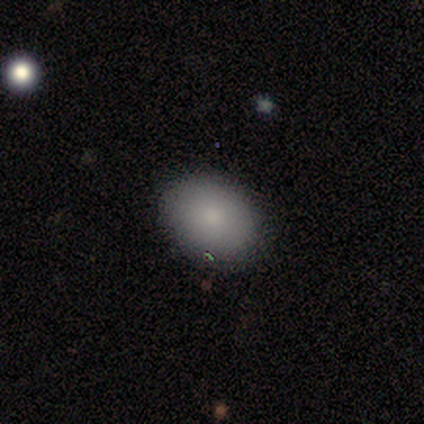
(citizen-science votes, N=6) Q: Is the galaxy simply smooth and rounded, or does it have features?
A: smooth — 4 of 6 (67%).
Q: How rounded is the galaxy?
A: in between — 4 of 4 (100%).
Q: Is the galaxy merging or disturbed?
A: none — 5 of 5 (100%).